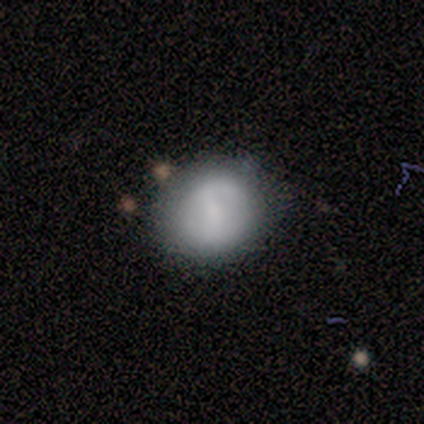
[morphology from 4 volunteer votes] Q: Smooth or featured?
A: smooth (75%); runner-up: featured or disk (25%)
Q: How rounded?
A: round (67%); runner-up: in between (33%)
Q: Merging?
A: none (50%); tied with: minor disturbance (50%)